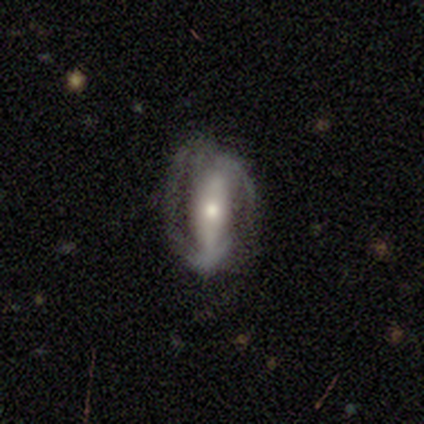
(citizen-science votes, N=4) Q: Smooth or featured?
A: featured or disk (75%); runner-up: smooth (25%)
Q: Edge-on disk?
A: no (100%)
Q: Bar?
A: strong (100%)
Q: Spiral arms?
A: yes (67%); runner-up: no (33%)
Q: Spiral winding?
A: tight (50%); tied with: medium (50%)
Q: Spiral arm count?
A: 2 (100%)
Q: Bulge size?
A: moderate (67%); runner-up: small (33%)
Q: Merging?
A: none (75%); runner-up: minor disturbance (25%)